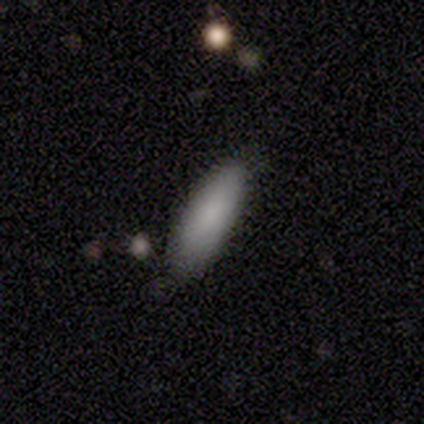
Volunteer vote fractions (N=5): smooth_or_featured: smooth (p=0.80) [alt: featured or disk p=0.20]
how_rounded: in between (p=1.00)
merging: none (p=0.80) [alt: minor disturbance p=0.20]